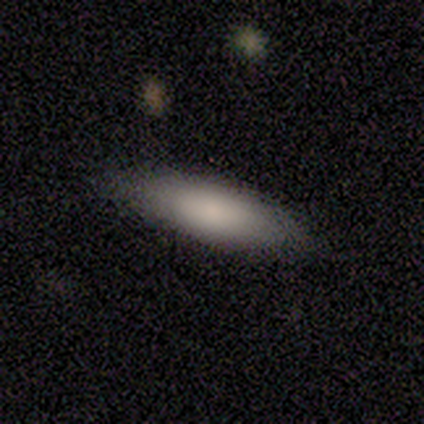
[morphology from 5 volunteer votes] smooth-or-featured: smooth: 100% | featured or disk: 0% | star or artifact: 0%
  how-rounded: in between: 60% | cigar-shaped: 40% | round: 0%
  merging: none: 80% | minor disturbance: 20% | major disturbance: 0% | merger: 0%